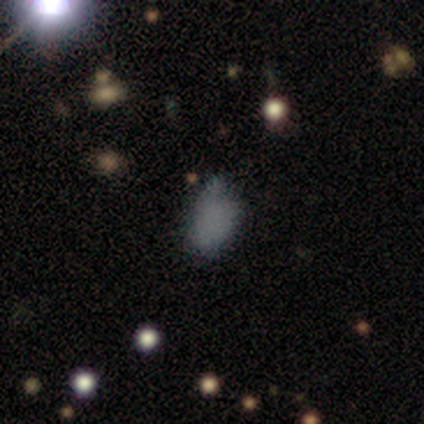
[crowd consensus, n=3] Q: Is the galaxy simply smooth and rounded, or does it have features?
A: smooth — 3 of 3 (100%).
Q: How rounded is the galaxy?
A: in between — 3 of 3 (100%).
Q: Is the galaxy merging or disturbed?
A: none — 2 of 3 (67%).